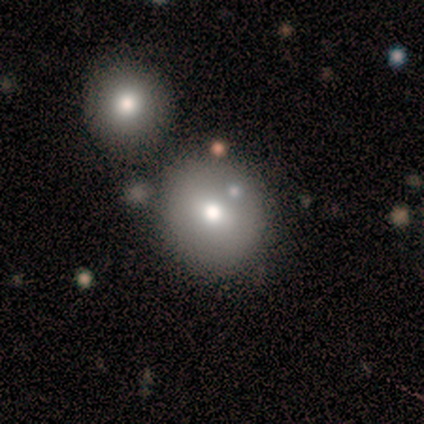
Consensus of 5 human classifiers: smooth 60%, featured or disk 20%, star or artifact 20%. Down the decision tree: how rounded — round (100%); merging — none (75%).